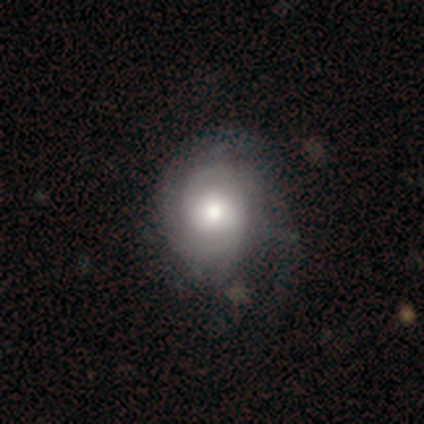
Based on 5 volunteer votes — Morphology: type=featured or disk (80%); edge-on=no (100%); bar=no (75%); spiral arms=yes (75%); winding=medium (67%); arm count=2 (67%); bulge=large (75%); merging=minor disturbance (50%).